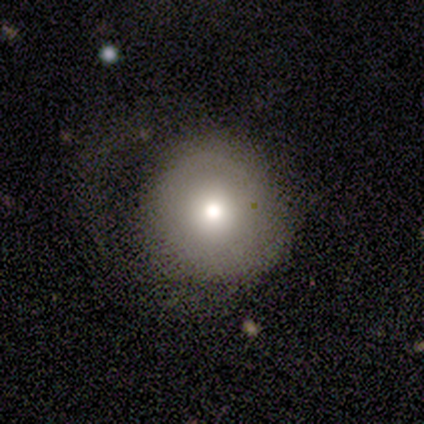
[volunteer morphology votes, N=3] Smooth or featured: featured or disk — 67% (smooth — 33%)
Edge-on disk: no — 100%
Bar: no — 100%
Spiral arms: yes — 50% (tied with no — 50%)
Spiral winding: loose — 100%
Spiral arm count: can't tell — 100%
Bulge size: moderate — 100%
Merging: none — 67% (minor disturbance — 33%)